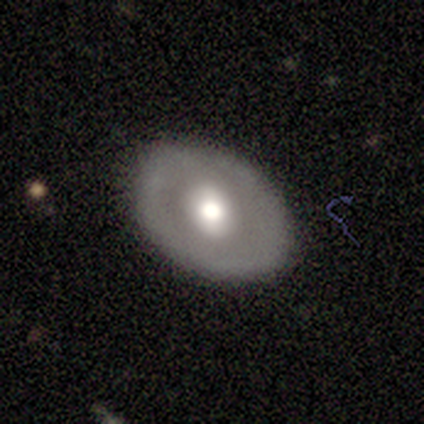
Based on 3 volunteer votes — This appears to be a featured or disk galaxy (67%) with a weak bar (50%, tied with no), no spiral arms (100%) and a moderate central bulge (100%). Merging: none (100%).